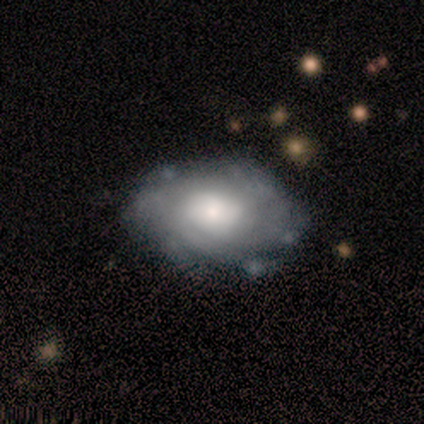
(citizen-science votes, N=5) This appears to be a featured or disk galaxy (60%) with no bar (100%), no spiral arms (67%) and a large central bulge (67%). Merging: none (75%).